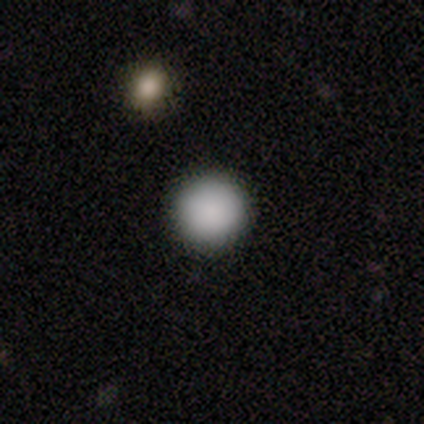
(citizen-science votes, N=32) smooth_or_featured: smooth (p=0.94) [alt: featured or disk p=0.03]
how_rounded: round (p=1.00)
merging: none (p=0.94) [alt: minor disturbance p=0.06]